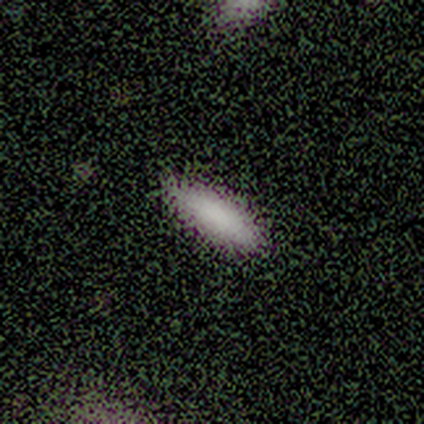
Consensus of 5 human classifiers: Smooth or featured: smooth — 80% (star or artifact — 20%)
How rounded: cigar-shaped — 75% (in between — 25%)
Merging: none — 100%